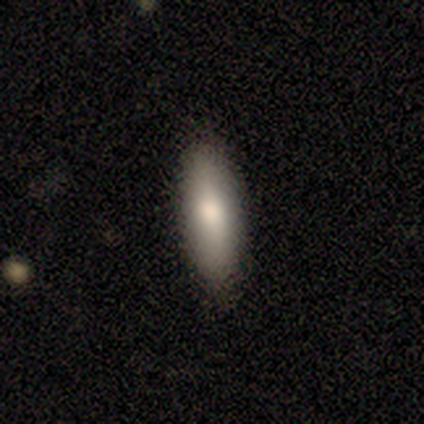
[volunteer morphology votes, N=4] type=smooth (100%); roundness=in between (100%); merging=none (100%).